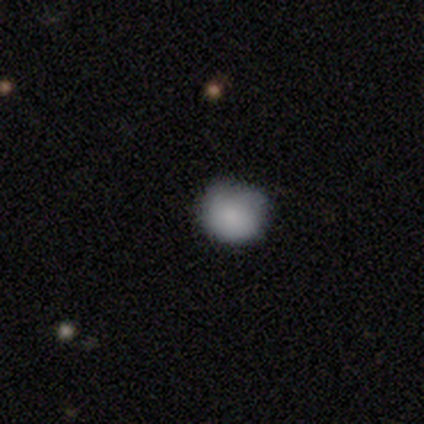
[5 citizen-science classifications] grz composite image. It shows a smooth galaxy with no disk features (100%) that is round (80%). Merging: none (80%).